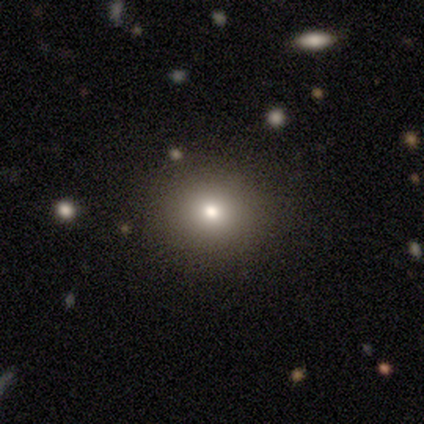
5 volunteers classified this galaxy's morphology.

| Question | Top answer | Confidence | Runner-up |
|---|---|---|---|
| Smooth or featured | smooth | 60% | featured or disk (20%) |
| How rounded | round | 100% | — |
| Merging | none | 100% | — |